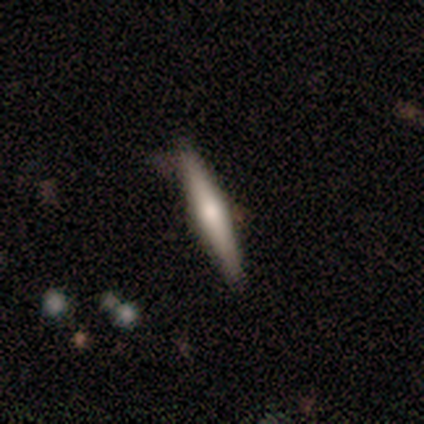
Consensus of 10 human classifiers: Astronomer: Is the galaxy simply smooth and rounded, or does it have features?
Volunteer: featured or disk — 60% (runner-up: smooth, 40%).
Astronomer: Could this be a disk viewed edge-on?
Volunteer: yes — 100%.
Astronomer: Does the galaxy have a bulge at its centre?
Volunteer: rounded — 100%.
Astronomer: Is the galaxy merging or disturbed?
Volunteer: none — 70%.